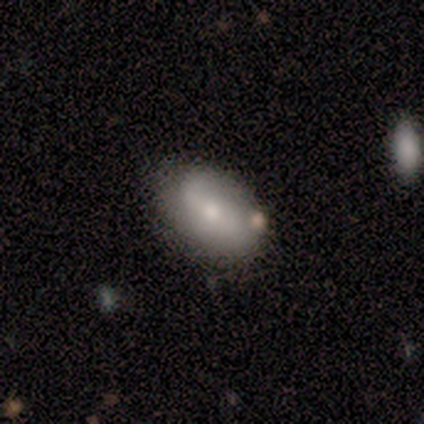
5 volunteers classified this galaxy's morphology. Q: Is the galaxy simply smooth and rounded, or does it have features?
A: smooth — 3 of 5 (60%).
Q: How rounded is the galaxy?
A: in between — 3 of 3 (100%).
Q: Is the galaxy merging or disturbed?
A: none — 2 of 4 (50%).